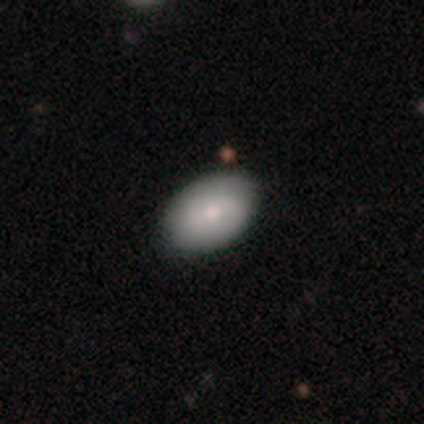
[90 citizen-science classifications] A smooth galaxy with no disk features (74%) that is in between round and cigar-shaped (91%).

Vote fractions:
- Smooth or featured? smooth: 74% / featured or disk: 19% / star or artifact: 7%
- How rounded? in between: 91% / round: 9% / cigar-shaped: 0%
- Merging? none: 85% / minor disturbance: 13% / major disturbance: 2% / merger: 0%